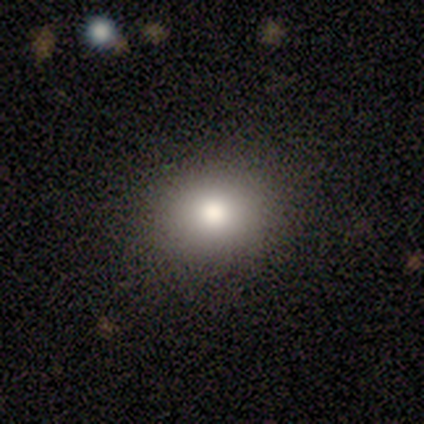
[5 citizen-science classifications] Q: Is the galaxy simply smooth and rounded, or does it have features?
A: smooth — 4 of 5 (80%).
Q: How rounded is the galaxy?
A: round — 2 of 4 (50%, tied with in between).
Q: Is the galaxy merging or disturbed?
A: none — 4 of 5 (80%).